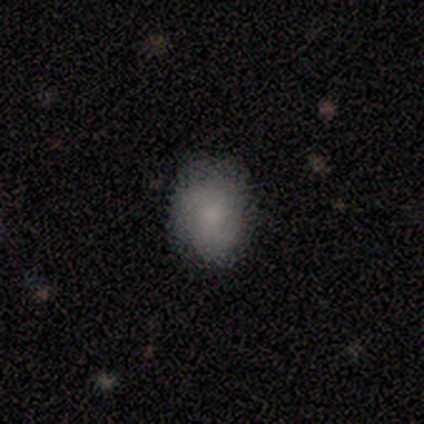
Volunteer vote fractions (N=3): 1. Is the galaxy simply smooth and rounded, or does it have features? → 100% smooth, 0% featured or disk, 0% star or artifact.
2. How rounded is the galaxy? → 67% round, 33% in between, 0% cigar-shaped.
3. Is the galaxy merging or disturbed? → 67% none, 33% major disturbance, 0% minor disturbance, 0% merger.